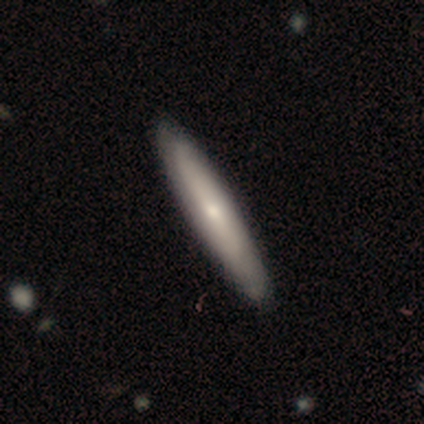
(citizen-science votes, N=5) A smooth galaxy with no disk features (100%) that is cigar-shaped (80%). Merging: none (80%).